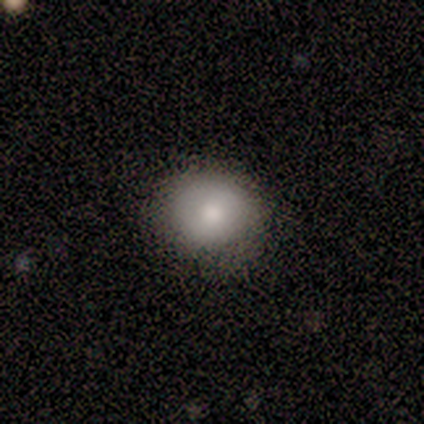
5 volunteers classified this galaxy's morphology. Q: Smooth or featured?
A: smooth (100%)
Q: How rounded?
A: round (80%); runner-up: cigar-shaped (20%)
Q: Merging?
A: none (80%); runner-up: minor disturbance (20%)